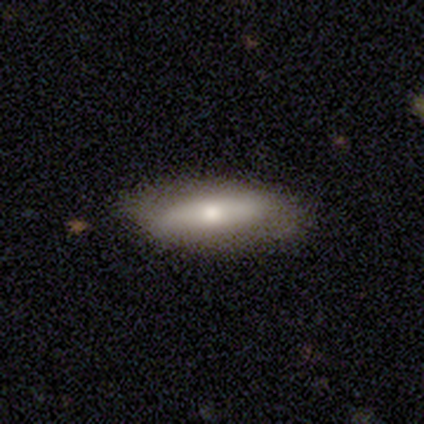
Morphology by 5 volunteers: Smooth or featured? featured or disk (80%)
Edge-on disk? no (100%)
Bar? no (50%)
Spiral arms? no (100%)
Bulge size? small (75%)
Merging? none (80%)